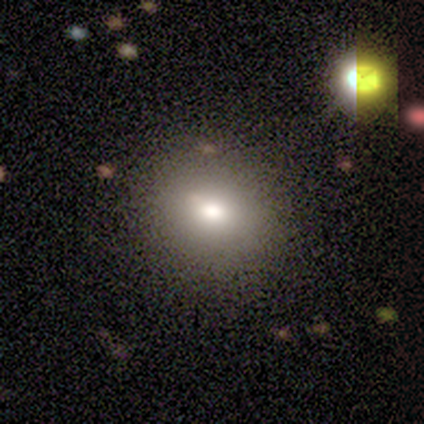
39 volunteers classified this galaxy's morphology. This appears to be a smooth galaxy with no disk features (90%) that is round (66%). Merging: none (83%).